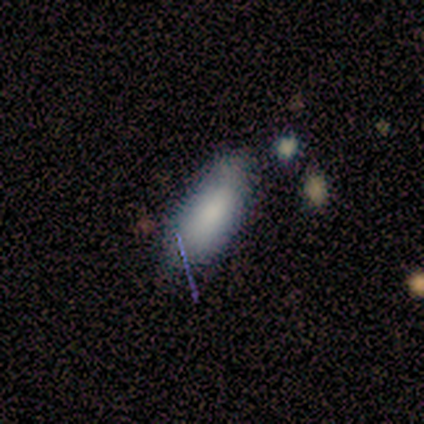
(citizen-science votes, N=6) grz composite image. It shows a smooth galaxy with no disk features (83%) that is in between round and cigar-shaped (60%). Merging: none (80%).